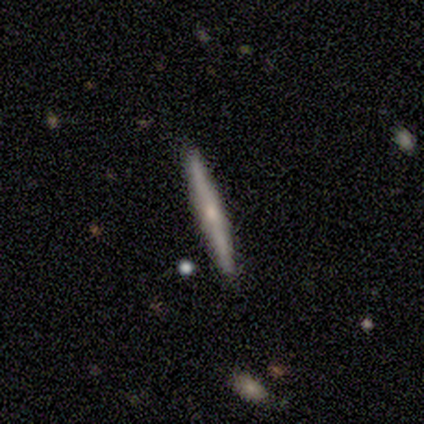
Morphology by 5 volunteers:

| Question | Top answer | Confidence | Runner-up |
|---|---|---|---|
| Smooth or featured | featured or disk | 60% | smooth (40%) |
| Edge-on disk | yes | 100% | — |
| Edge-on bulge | rounded | 67% | none (33%) |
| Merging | none | 100% | — |